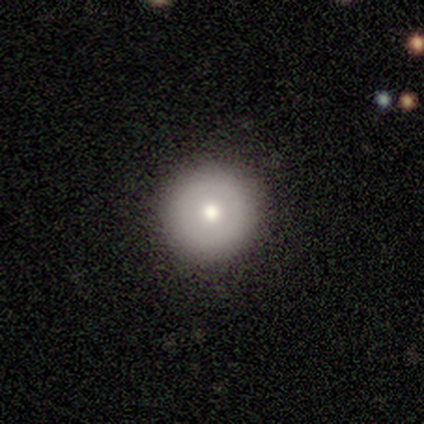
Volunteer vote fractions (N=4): smooth_or_featured: smooth (p=0.75) [alt: featured or disk p=0.25]
how_rounded: round (p=1.00)
merging: none (p=0.75) [alt: major disturbance p=0.25]